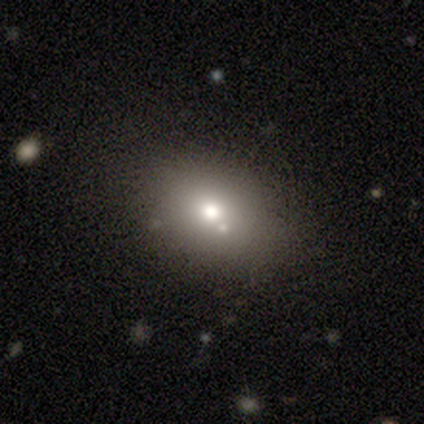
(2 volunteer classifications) This appears to be a smooth galaxy with no disk features (50%, tied with featured or disk) that is in between round and cigar-shaped (100%). Merging: none (100%).